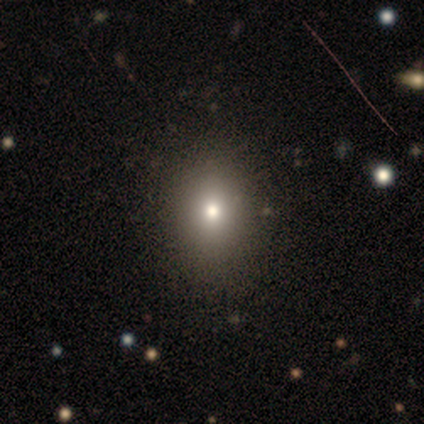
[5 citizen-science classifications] Smooth or featured: smooth — 80% (star or artifact — 20%)
How rounded: round — 50% (tied with in between — 50%)
Merging: minor disturbance — 75% (none — 25%)